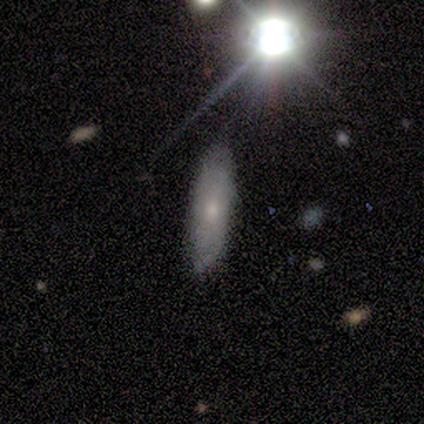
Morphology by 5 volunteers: Smooth or featured? 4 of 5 (80%) said smooth. How rounded? 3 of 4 (75%) said cigar-shaped. Merging? 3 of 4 (75%) said none.